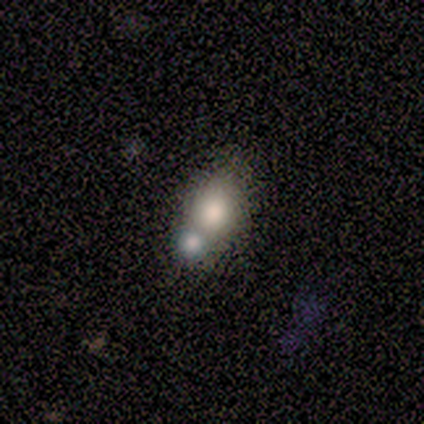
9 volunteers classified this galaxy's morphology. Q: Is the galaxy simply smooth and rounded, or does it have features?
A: smooth — 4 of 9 (44%).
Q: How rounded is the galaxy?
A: in between — 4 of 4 (100%).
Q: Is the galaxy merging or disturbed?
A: none — 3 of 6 (50%).